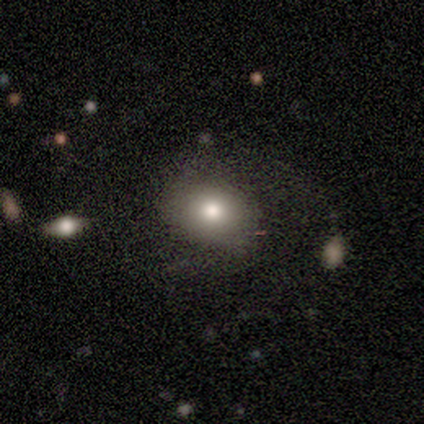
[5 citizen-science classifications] smooth_or_featured: smooth (p=0.80) [alt: star or artifact p=0.20]
how_rounded: round (p=1.00)
merging: none (p=0.50) [tied with: major disturbance p=0.50]